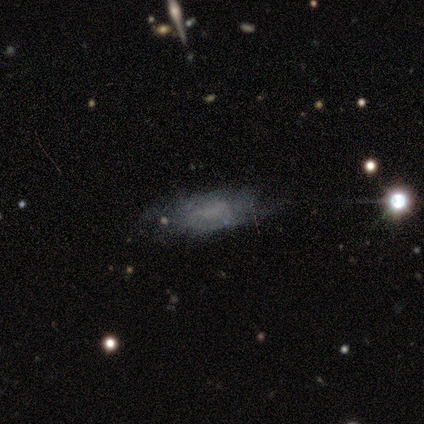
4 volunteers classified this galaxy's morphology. Smooth or featured? smooth (50%, tied with featured or disk)
How rounded? in between (50%, tied with cigar-shaped)
Merging? none (50%, tied with minor disturbance)